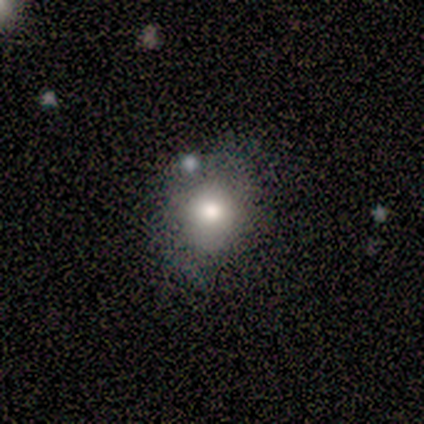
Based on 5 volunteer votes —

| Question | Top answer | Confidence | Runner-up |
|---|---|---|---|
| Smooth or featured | smooth | 80% | star or artifact (20%) |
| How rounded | round | 50% | tied: in between (50%) |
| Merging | none | 50% | tied: minor disturbance (50%) |